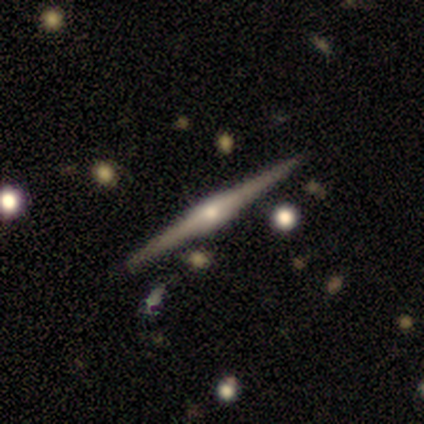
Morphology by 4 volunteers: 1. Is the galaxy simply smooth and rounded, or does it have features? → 75% featured or disk, 25% star or artifact, 0% smooth.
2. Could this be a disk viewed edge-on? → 100% yes, 0% no.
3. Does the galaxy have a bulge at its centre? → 67% rounded, 33% boxy, 0% none.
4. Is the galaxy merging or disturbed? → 100% none, 0% minor disturbance, 0% major disturbance, 0% merger.